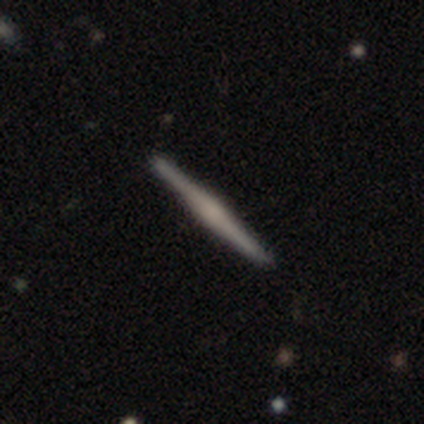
smooth_or_featured: featured or disk (p=0.80) [alt: smooth p=0.20]
disk_edge_on: yes (p=1.00)
edge_on_bulge: rounded (p=0.50) [alt: boxy p=0.25]
merging: none (p=1.00)